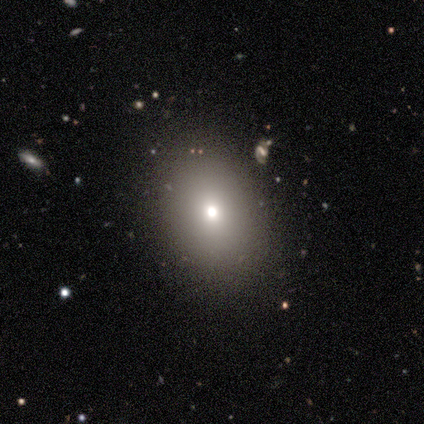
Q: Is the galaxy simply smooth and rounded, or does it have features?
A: smooth — 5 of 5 (100%).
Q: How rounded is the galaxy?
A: in between — 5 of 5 (100%).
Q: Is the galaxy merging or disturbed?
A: none — 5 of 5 (100%).